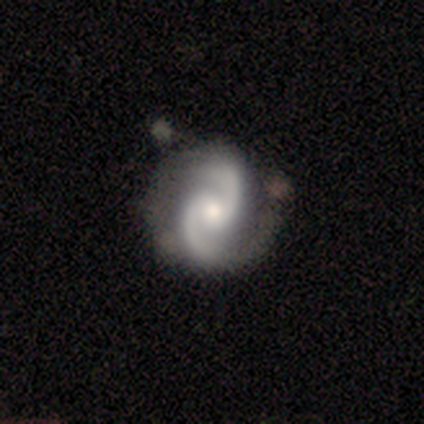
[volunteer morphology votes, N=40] Overall: featured or disk (95%). Edge-on disk: no (100%). Bar: no (47%; weak 39%). Spiral arms: yes (92%). Spiral arm count: 2 (100%). Spiral winding: medium (46%; loose 29%). Bulge size: moderate (66%; small 29%). Merging: none (72%).